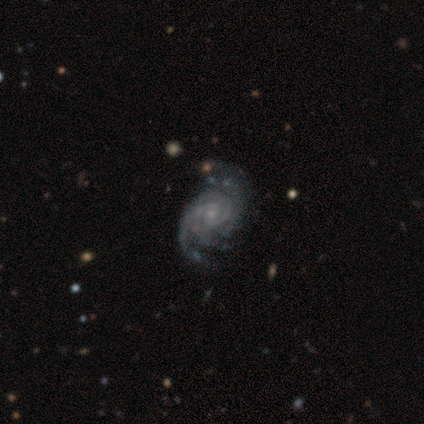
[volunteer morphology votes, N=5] smooth_or_featured: featured or disk (p=1.00)
disk_edge_on: no (p=1.00)
bar: no (p=1.00)
has_spiral_arms: yes (p=1.00)
spiral_winding: tight (p=0.80) [alt: medium p=0.20]
spiral_arm_count: 3 (p=0.60) [alt: 2 p=0.20]
bulge_size: small (p=0.80) [alt: none p=0.20]
merging: none (p=0.40) [tied with: major disturbance p=0.40]